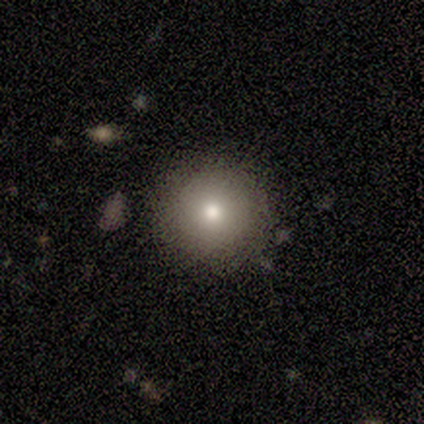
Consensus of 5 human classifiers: Smooth or featured: smooth — 40% (tied with featured or disk — 40%)
How rounded: round — 100%
Merging: none — 100%